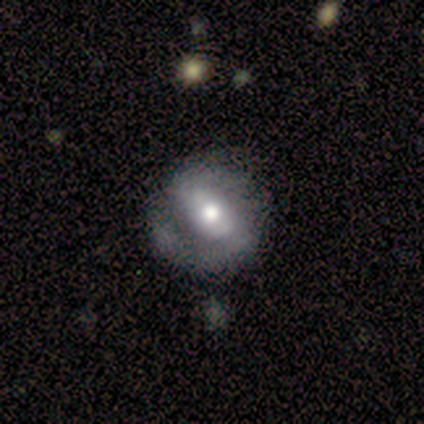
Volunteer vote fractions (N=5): Volunteers were most divided on "spiral winding" (2-way tie): tight: 40%, medium: 40%, loose: 20%. More confident: smooth or featured — featured or disk (100%); edge-on disk — no (100%); spiral arms — yes (100%); bar — strong (80%); spiral arm count — 2 (80%); bulge size — moderate (80%); merging — none (80%).